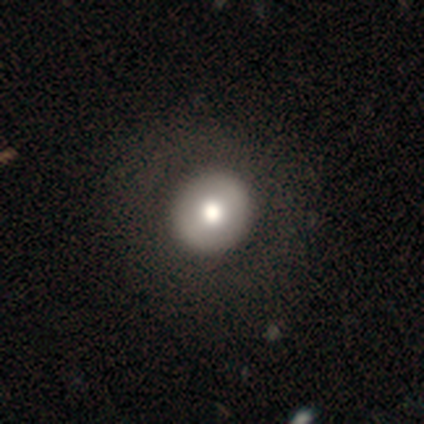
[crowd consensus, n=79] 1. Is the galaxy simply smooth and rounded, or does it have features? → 71% smooth, 29% featured or disk, 0% star or artifact.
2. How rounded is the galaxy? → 93% round, 7% in between, 0% cigar-shaped.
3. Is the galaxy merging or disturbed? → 43% none, 5% minor disturbance, 1% major disturbance, 1% merger.